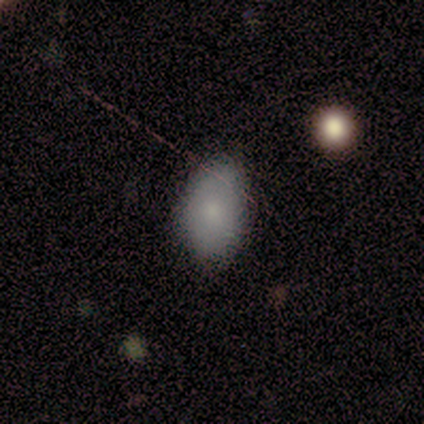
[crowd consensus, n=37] Morphology: type=smooth (84%); roundness=in between (90%); merging=none (71%).